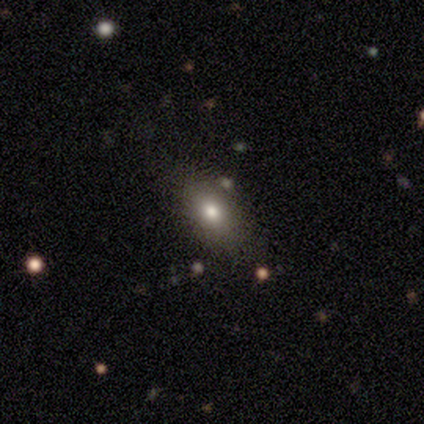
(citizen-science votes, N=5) smooth 60%, featured or disk 20%, star or artifact 20%. Down the decision tree: how rounded — in between (100%); merging — none (75%).